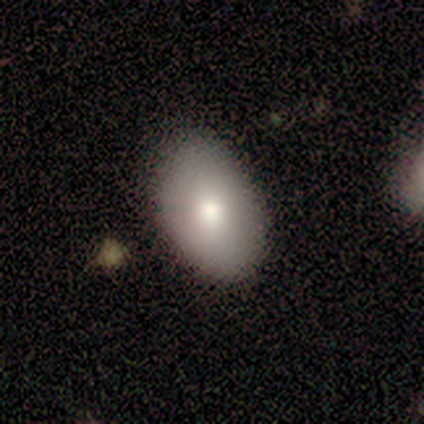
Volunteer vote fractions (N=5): This appears to be a smooth galaxy with no disk features (60%) that is in between round and cigar-shaped (100%). Merging: minor disturbance (60%).